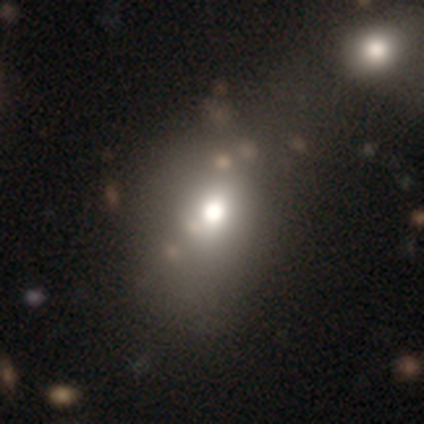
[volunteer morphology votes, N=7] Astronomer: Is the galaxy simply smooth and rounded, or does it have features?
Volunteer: smooth — 100%.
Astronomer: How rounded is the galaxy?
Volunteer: in between — 57% (runner-up: round, 43%).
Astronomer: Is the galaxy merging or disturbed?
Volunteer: none — 57% (runner-up: minor disturbance, 43%).